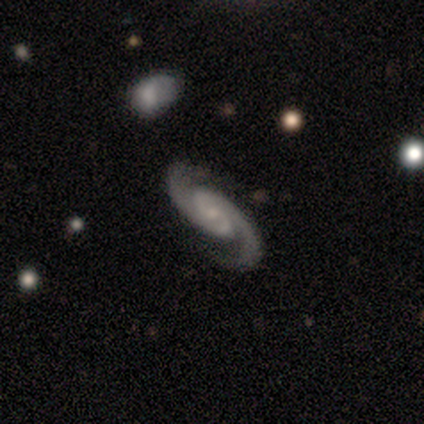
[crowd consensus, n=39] smooth-or-featured: featured or disk: 97% | star or artifact: 3% | smooth: 0%
  disk-edge-on: no: 97% | yes: 3%
    bar: no: 54% | weak: 43% | strong: 3%
    has-spiral-arms: yes: 100% | no: 0%
      spiral-winding: medium: 65% | tight: 24% | loose: 11%
      spiral-arm-count: 2: 100% | 1: 0% | 3: 0% | 4: 0% | more than 4: 0% | can't tell: 0%
    bulge-size: small: 65% | moderate: 22% | none: 11% | large: 3% | dominant: 0%
  merging: none: 61% | merger: 5% | minor disturbance: 3% | major disturbance: 3%